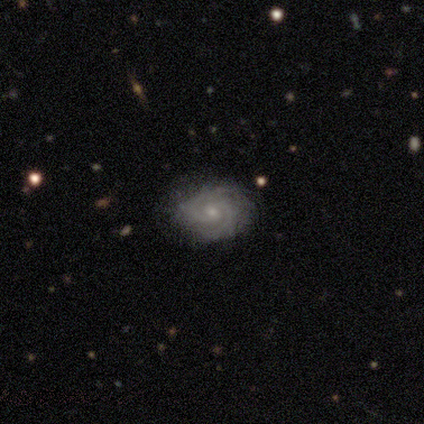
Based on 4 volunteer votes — Q: Smooth or featured?
A: featured or disk (75%); runner-up: smooth (25%)
Q: Edge-on disk?
A: no (100%)
Q: Bar?
A: weak (67%); runner-up: no (33%)
Q: Spiral arms?
A: yes (100%)
Q: Spiral winding?
A: tight (33%); tied with: medium (33%); loose (33%)
Q: Spiral arm count?
A: 2 (67%); runner-up: 4 (33%)
Q: Bulge size?
A: small (67%); runner-up: moderate (33%)
Q: Merging?
A: none (100%)